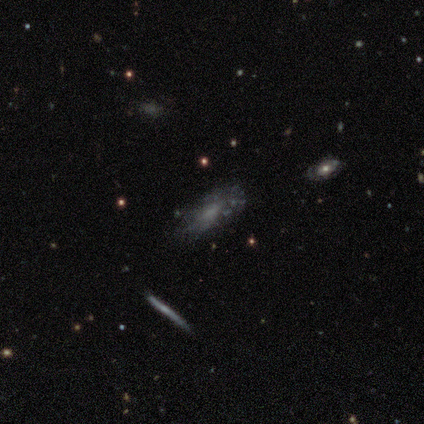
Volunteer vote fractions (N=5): A smooth galaxy with no disk features (60%) that is in between round and cigar-shaped (67%).

Vote fractions:
- Smooth or featured? smooth: 60% / featured or disk: 20% / star or artifact: 20%
- How rounded? in between: 67% / cigar-shaped: 33% / round: 0%
- Merging? none: 100% / minor disturbance: 0% / major disturbance: 0% / merger: 0%